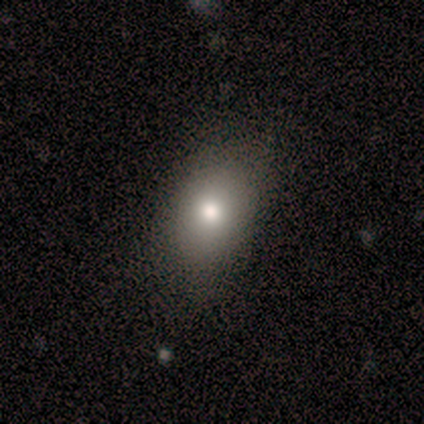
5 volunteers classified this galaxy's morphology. smooth-or-featured: smooth: 60% | star or artifact: 40% | featured or disk: 0%
  how-rounded: in between: 100% | round: 0% | cigar-shaped: 0%
  merging: none: 33% (tied) | minor disturbance: 33% (tied) | major disturbance: 33% (tied) | merger: 0%